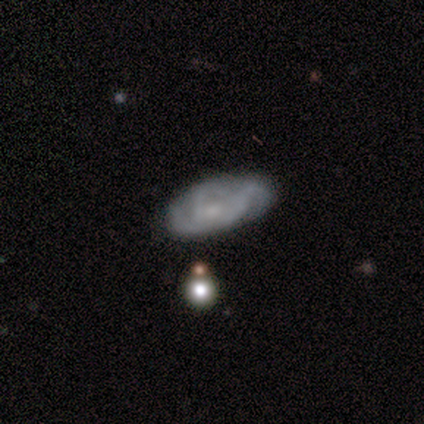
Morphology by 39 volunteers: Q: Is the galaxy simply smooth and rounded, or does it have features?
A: featured or disk — 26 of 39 (67%).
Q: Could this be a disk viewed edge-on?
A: no — 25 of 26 (96%).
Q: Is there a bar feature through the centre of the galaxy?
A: no — 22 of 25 (88%).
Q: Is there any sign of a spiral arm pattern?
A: yes — 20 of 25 (80%).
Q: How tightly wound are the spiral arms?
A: medium — 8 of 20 (40%).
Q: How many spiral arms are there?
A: can't tell — 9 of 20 (45%).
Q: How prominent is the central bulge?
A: small — 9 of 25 (36%, tied with none).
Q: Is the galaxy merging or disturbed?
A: none — 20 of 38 (53%).